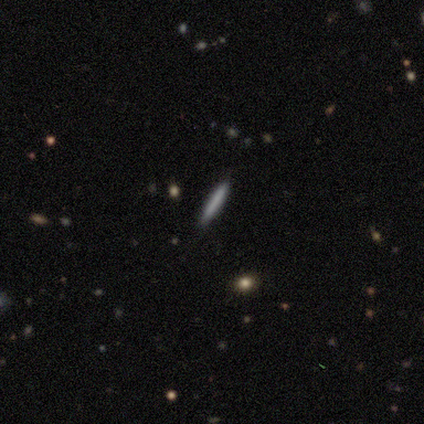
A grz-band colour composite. It shows a featured or disk galaxy (40%, tied with star or artifact) viewed edge-on (100%) with no central bulge (100%). Merging: none (67%).